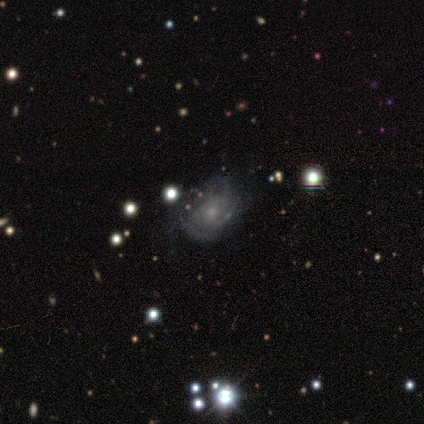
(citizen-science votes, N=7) A featured or disk galaxy (71%) with no bar (60%), medium (40%, tied with loose) spiral arms (100%) and a small central bulge (80%). Merging: none (43%, tied with minor disturbance).